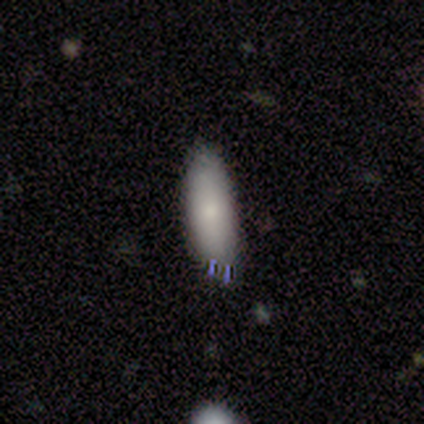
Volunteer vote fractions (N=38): Smooth or featured? smooth (76%)
How rounded? in between (66%)
Merging? none (71%)